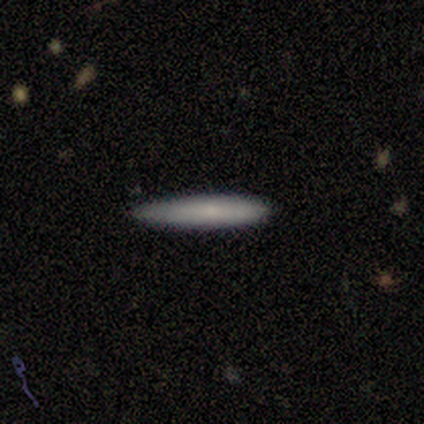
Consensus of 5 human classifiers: This appears to be a smooth galaxy with no disk features (100%) that is cigar-shaped (100%). Merging: none (60%).